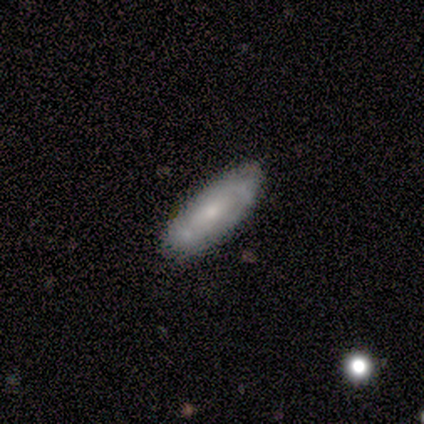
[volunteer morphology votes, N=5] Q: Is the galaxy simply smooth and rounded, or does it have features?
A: featured or disk — 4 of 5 (80%).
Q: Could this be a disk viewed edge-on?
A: no — 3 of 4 (75%).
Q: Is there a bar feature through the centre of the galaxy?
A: no — 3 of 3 (100%).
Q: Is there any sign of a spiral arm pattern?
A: yes — 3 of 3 (100%).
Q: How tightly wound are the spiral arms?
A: tight — 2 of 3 (67%).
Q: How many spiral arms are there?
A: can't tell — 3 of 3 (100%).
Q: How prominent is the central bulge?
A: small — 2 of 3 (67%).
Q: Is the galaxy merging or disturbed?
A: none — 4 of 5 (80%).